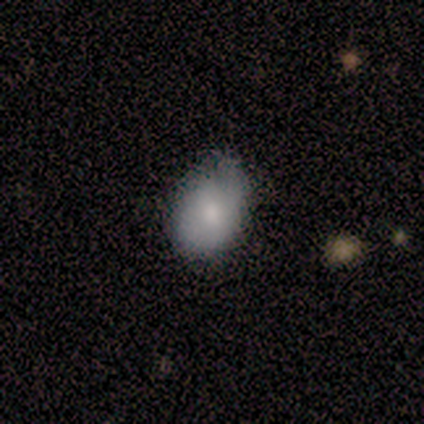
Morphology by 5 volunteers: smooth 60%, featured or disk 20%, star or artifact 20%. Down the decision tree: how rounded — in between (67%); merging — none (50%, tied with minor disturbance).